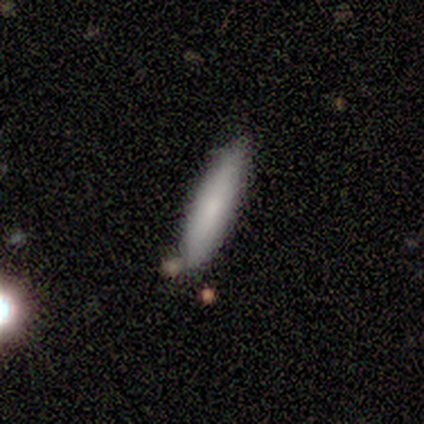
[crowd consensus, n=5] A smooth galaxy with no disk features (100%) that is cigar-shaped (100%). Merging: none (100%).